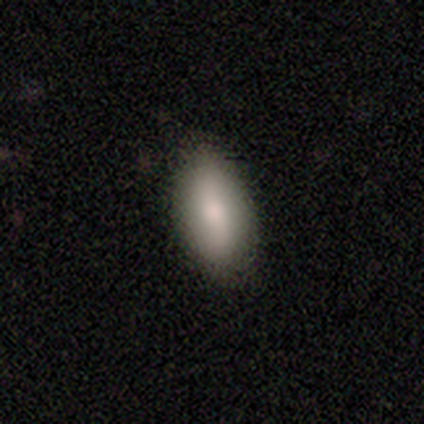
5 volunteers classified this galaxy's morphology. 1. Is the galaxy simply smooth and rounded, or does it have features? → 80% smooth, 20% star or artifact, 0% featured or disk.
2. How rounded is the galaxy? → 75% in between, 25% round, 0% cigar-shaped.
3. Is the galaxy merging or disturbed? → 100% none, 0% minor disturbance, 0% major disturbance, 0% merger.